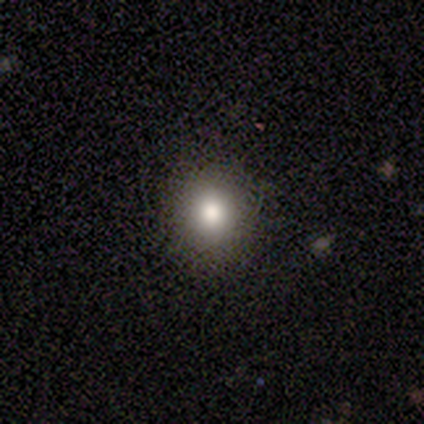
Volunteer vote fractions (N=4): Smooth or featured?
  - star or artifact: 75% *
  - featured or disk: 25%
  - smooth: 0%